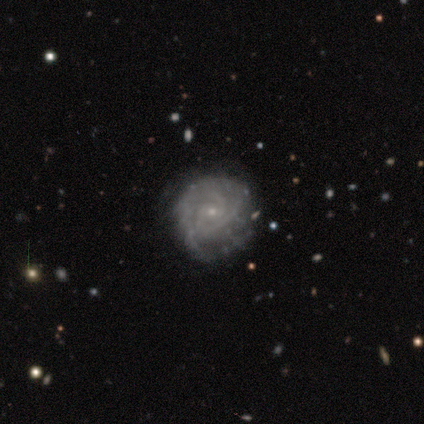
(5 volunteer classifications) A featured or disk galaxy (80%) with a weak bar (50%, tied with no), 3 (50%) tight (100%) spiral arms (100%) and a small central bulge (100%). Merging: none (40%, tied with minor disturbance).